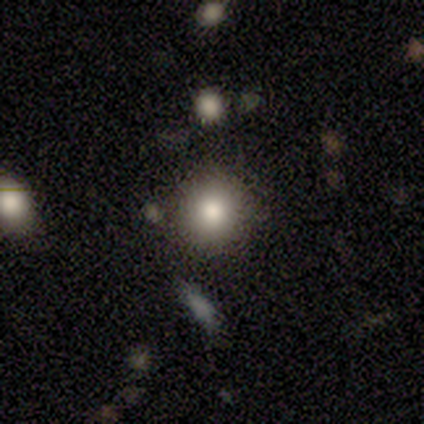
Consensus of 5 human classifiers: A smooth galaxy with no disk features (60%) that is round (100%).

Vote fractions:
- Smooth or featured? smooth: 60% / featured or disk: 20% / star or artifact: 20%
- How rounded? round: 100% / in between: 0% / cigar-shaped: 0%
- Merging? none: 100% / minor disturbance: 0% / major disturbance: 0% / merger: 0%